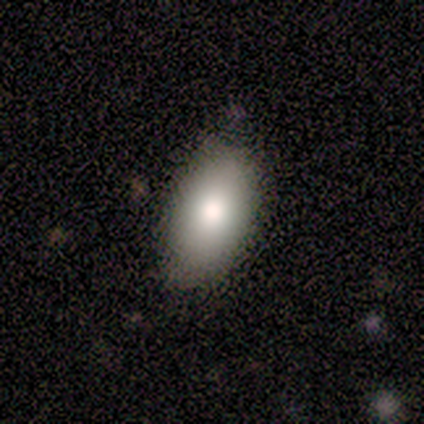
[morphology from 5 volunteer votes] smooth 100%, featured or disk 0%, star or artifact 0%. Down the decision tree: how rounded — in between (100%); merging — minor disturbance (60%).